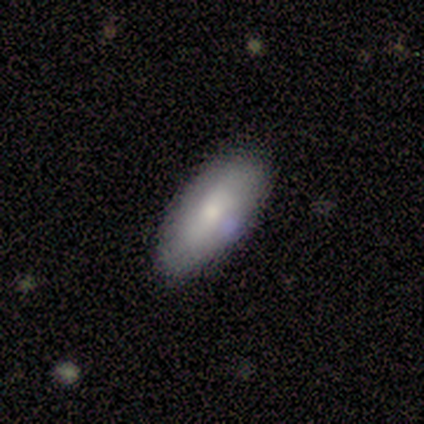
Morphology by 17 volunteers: smooth-or-featured: smooth: 76% | featured or disk: 24% | star or artifact: 0%
  how-rounded: in between: 62% | cigar-shaped: 38% | round: 0%
  merging: none: 82% | minor disturbance: 18% | major disturbance: 0% | merger: 0%